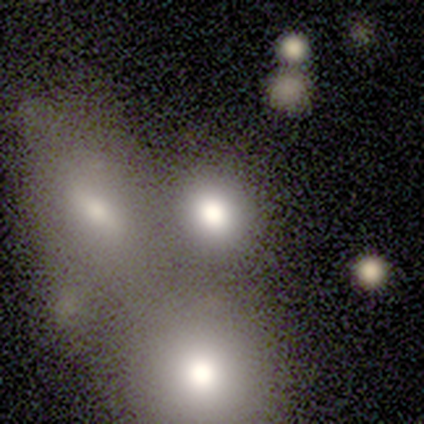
Overall: smooth (50%, tied with featured or disk). How rounded: round (50%, tied with in between). Merging: merger (75%).